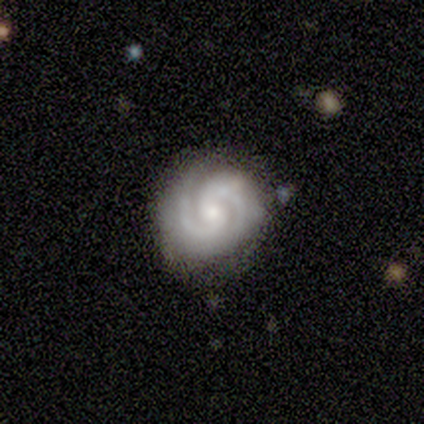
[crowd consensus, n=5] Smooth or featured? 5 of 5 (100%) said featured or disk. Edge-on disk? 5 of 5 (100%) said no. Bar? 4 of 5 (80%) said no. Spiral arms? 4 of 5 (80%) said yes. Spiral winding? 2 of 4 (50%, tied with medium) said tight. Spiral arm count? 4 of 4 (100%) said 2. Bulge size? 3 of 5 (60%) said small. Merging? 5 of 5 (100%) said none.